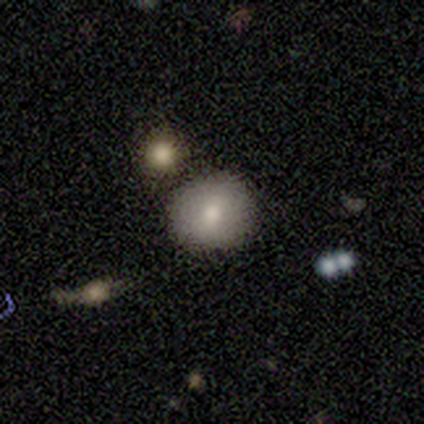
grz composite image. It shows a smooth galaxy with no disk features (100%) that is round (100%). Merging: none (60%).